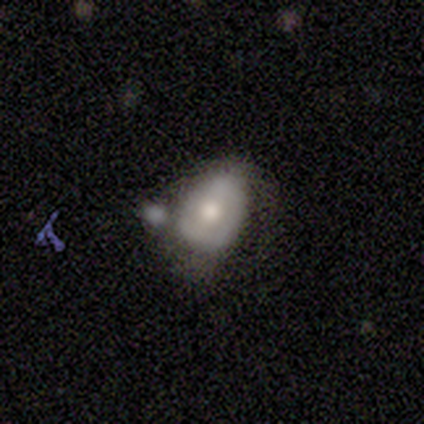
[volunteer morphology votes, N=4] Smooth or featured?
  - featured or disk: 75% *
  - smooth: 25%
  - star or artifact: 0%
Edge-on disk?
  - no: 100% *
  - yes: 0%
Bar?
  - no: 67% *
  - weak: 33%
  - strong: 0%
Spiral arms?
  - no: 67% *
  - yes: 33%
Bulge size?
  - moderate: 67% *
  - large: 33%
  - dominant: 0%
  - small: 0%
  - none: 0%
Merging?
  - minor disturbance: 50% * (tied)
  - merger: 50% * (tied)
  - none: 0%
  - major disturbance: 0%